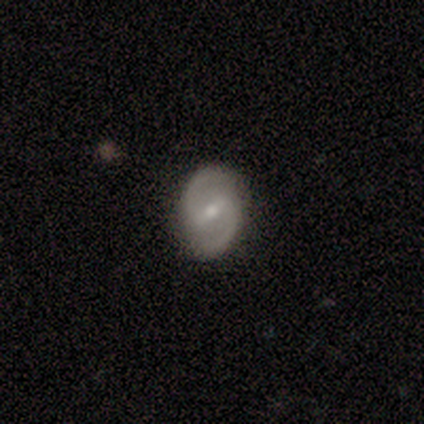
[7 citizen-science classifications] This appears to be a featured or disk galaxy (86%) with a weak bar (67%), 2 (100%) medium (83%) spiral arms (100%) and a small central bulge (83%). Merging: none (86%).